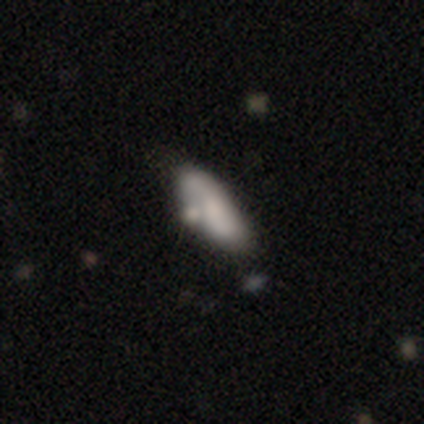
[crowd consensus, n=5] Smooth or featured?
  - smooth: 60% *
  - featured or disk: 40%
  - star or artifact: 0%
How rounded?
  - in between: 67% *
  - cigar-shaped: 33%
  - round: 0%
Merging?
  - none: 60% *
  - minor disturbance: 20%
  - merger: 20%
  - major disturbance: 0%